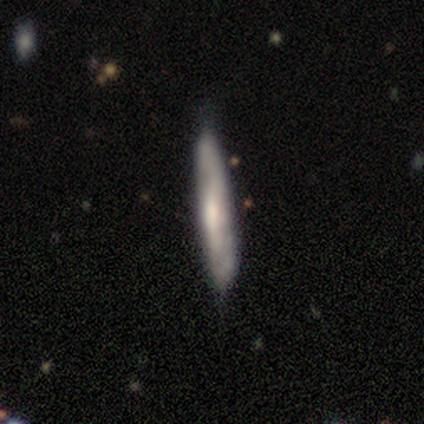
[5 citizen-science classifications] Smooth or featured: smooth — 40% (tied with featured or disk — 40%)
How rounded: cigar-shaped — 100%
Merging: none — 100%